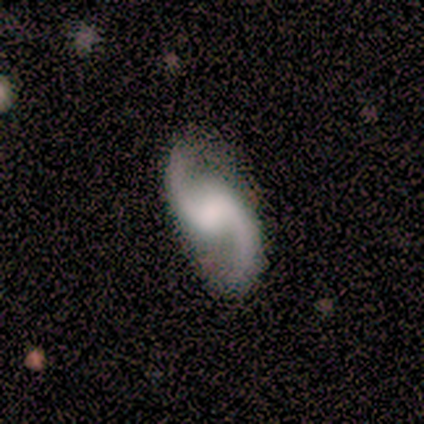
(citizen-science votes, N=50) Volunteers were most divided on "bar": no: 50%, weak: 41%, strong: 9%. Remaining: edge-on disk — no (100%); spiral arms — yes (100%); spiral arm count — 2 (100%); smooth or featured — featured or disk (88%); merging — none (81%); spiral winding — loose (61%); bulge size — none (39%).